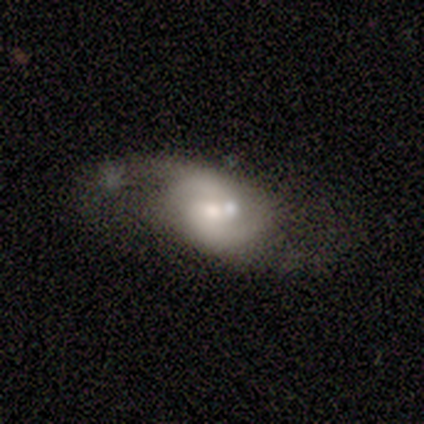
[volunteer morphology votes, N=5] Smooth or featured?
  - featured or disk: 60% *
  - smooth: 40%
  - star or artifact: 0%
Edge-on disk?
  - no: 100% *
  - yes: 0%
Bar?
  - no: 67% *
  - weak: 33%
  - strong: 0%
Spiral arms?
  - yes: 100% *
  - no: 0%
Spiral winding?
  - medium: 67% *
  - loose: 33%
  - tight: 0%
Spiral arm count?
  - 2: 67% *
  - can't tell: 33%
  - 1: 0%
  - 3: 0%
  - 4: 0%
  - more than 4: 0%
Bulge size?
  - moderate: 67% *
  - small: 33%
  - dominant: 0%
  - large: 0%
  - none: 0%
Merging?
  - major disturbance: 40% * (tied)
  - merger: 40% * (tied)
  - none: 20%
  - minor disturbance: 0%